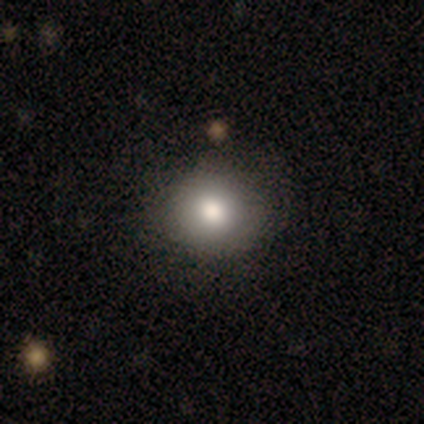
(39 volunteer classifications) Volunteers were most divided on "merging": none: 60%, minor disturbance: 6%, merger: 3%, major disturbance: 0%. More confident: how rounded — round (94%); smooth or featured — smooth (85%).